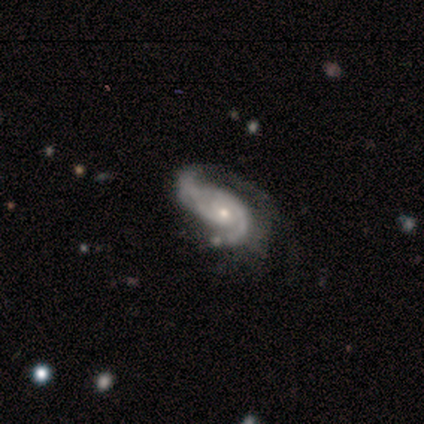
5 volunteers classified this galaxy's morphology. smooth-or-featured: featured or disk: 100% | smooth: 0% | star or artifact: 0%
  disk-edge-on: no: 80% | yes: 20%
    bar: weak: 50% (tied) | no: 50% (tied) | strong: 0%
    has-spiral-arms: yes: 100% | no: 0%
      spiral-winding: medium: 75% | tight: 25% | loose: 0%
      spiral-arm-count: 2: 100% | 1: 0% | 3: 0% | 4: 0% | more than 4: 0% | can't tell: 0%
    bulge-size: small: 50% | moderate: 25% | none: 25% | dominant: 0% | large: 0%
  merging: none: 60% | minor disturbance: 40% | major disturbance: 0% | merger: 0%